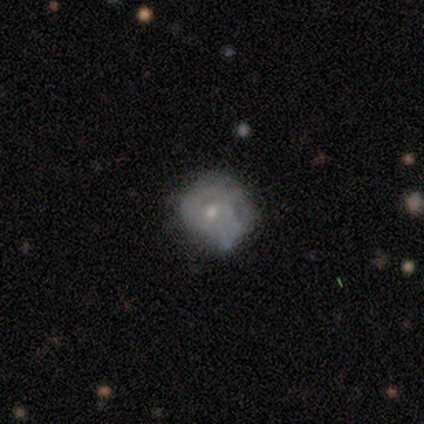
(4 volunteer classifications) This is likely a smooth galaxy (75%). How rounded: clearly round (100%). Merging: possibly none (50%).